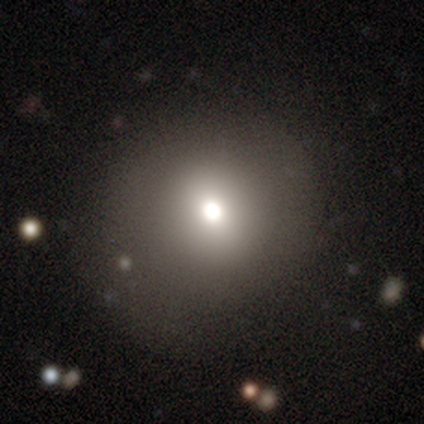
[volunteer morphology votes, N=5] Smooth or featured?
  - smooth: 60% *
  - featured or disk: 20%
  - star or artifact: 20%
How rounded?
  - round: 100% *
  - in between: 0%
  - cigar-shaped: 0%
Merging?
  - none: 50% * (tied)
  - minor disturbance: 50% * (tied)
  - major disturbance: 0%
  - merger: 0%